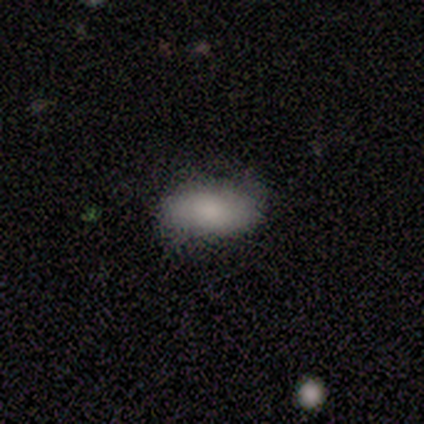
A smooth galaxy with no disk features (71%) that is in between round and cigar-shaped (100%). Merging: none (43%, tied with minor disturbance).